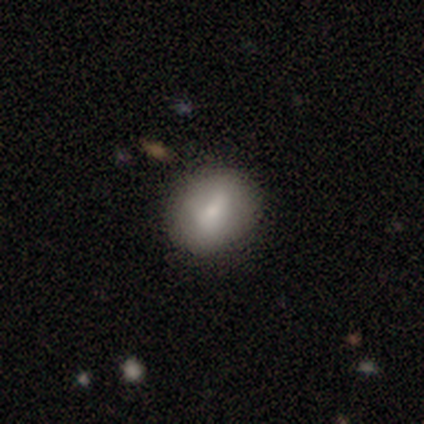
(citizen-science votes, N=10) smooth 80%, featured or disk 10%, star or artifact 10%. Down the decision tree: how rounded — in between (88%); merging — none (78%).